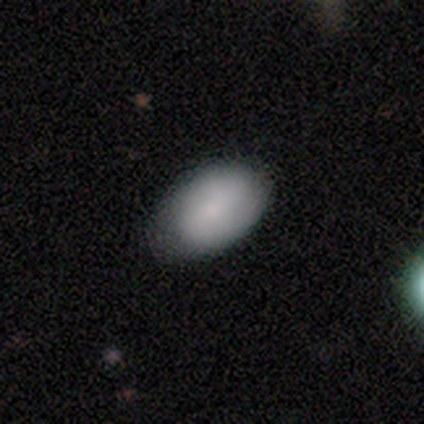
Smooth or featured?
  - smooth: 80% *
  - featured or disk: 20%
  - star or artifact: 0%
How rounded?
  - in between: 100% *
  - round: 0%
  - cigar-shaped: 0%
Merging?
  - minor disturbance: 60% *
  - none: 40%
  - major disturbance: 0%
  - merger: 0%